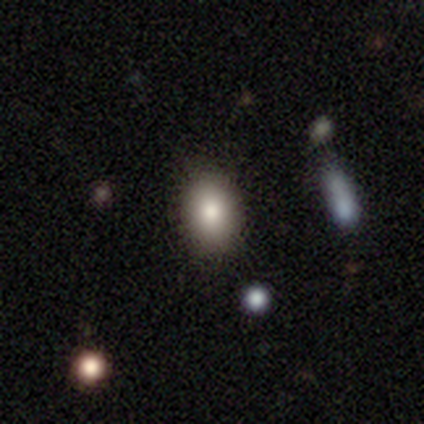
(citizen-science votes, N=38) Smooth or featured: smooth — 79% (featured or disk — 13%)
How rounded: in between — 77% (round — 23%)
Merging: none — 86% (minor disturbance — 9%)